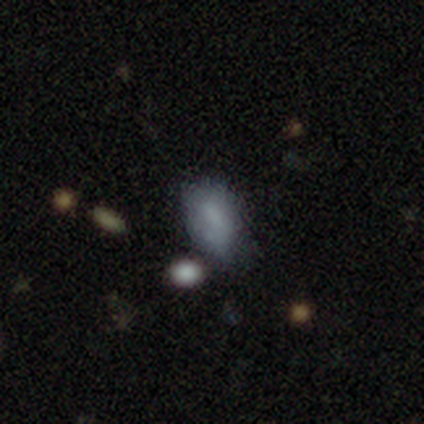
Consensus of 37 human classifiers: Smooth or featured? smooth (68%)
How rounded? in between (96%)
Merging? minor disturbance (52%)